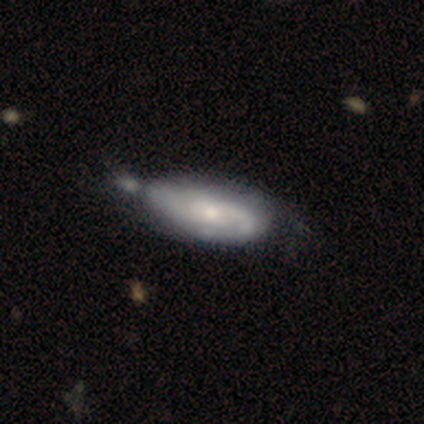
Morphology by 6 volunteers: smooth_or_featured: smooth (p=0.50) [tied with: featured or disk p=0.50]
how_rounded: in between (p=1.00)
merging: minor disturbance (p=0.50) [alt: none p=0.17]